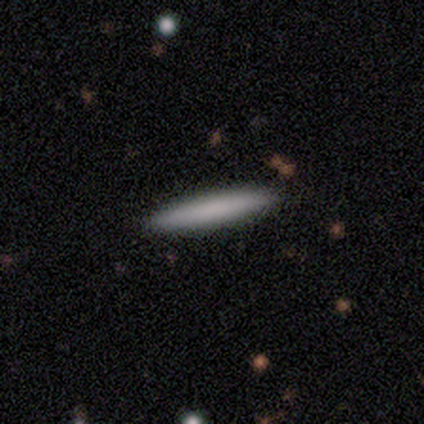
This is clearly a smooth galaxy (80%). How rounded: likely cigar-shaped (75%). Merging: clearly none (100%).